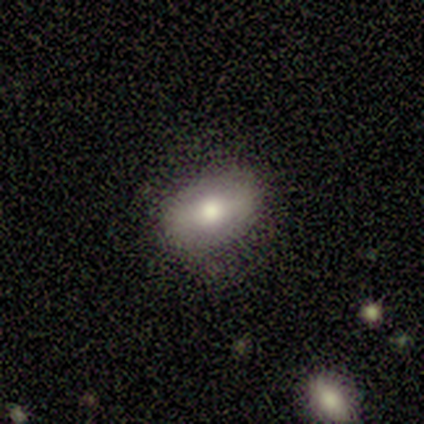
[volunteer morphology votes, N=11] type=smooth (91%); roundness=in between (80%); merging=none (73%).